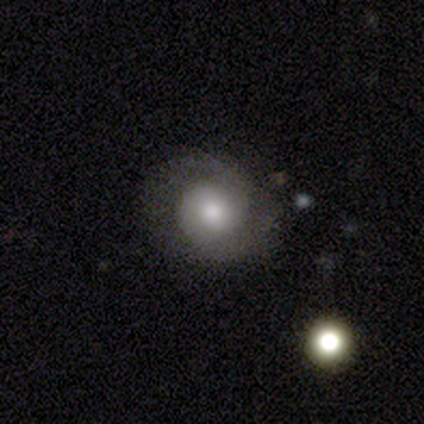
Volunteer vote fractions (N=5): This appears to be a featured or disk galaxy (80%) with no bar (100%), 2 (100%) tight (50%) spiral arms (100%) and a moderate central bulge (100%). Merging: none (80%).